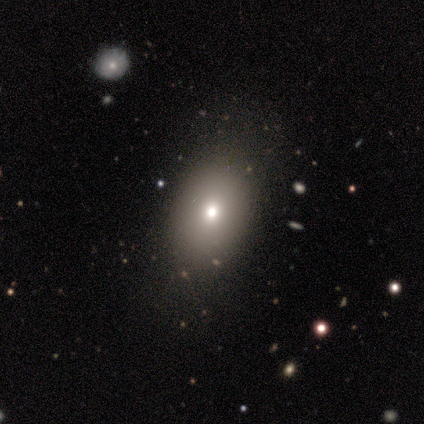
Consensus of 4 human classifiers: smooth-or-featured: smooth: 50% (tied) | star or artifact: 50% (tied) | featured or disk: 0%
  how-rounded: round: 50% (tied) | in between: 50% (tied) | cigar-shaped: 0%
  merging: none: 100% | minor disturbance: 0% | major disturbance: 0% | merger: 0%